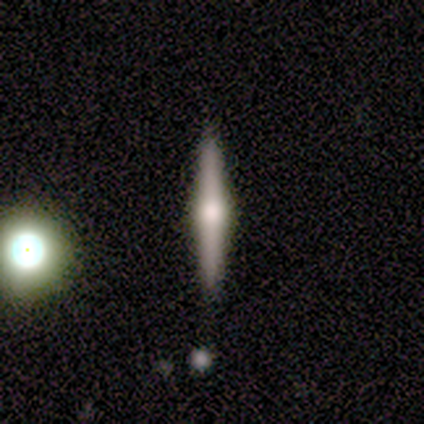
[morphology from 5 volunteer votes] A featured or disk galaxy (100%) viewed edge-on (100%) with a rounded central bulge (100%).

Vote fractions:
- Smooth or featured? featured or disk: 100% / smooth: 0% / star or artifact: 0%
- Edge-on disk? yes: 100% / no: 0%
- Edge-on bulge? rounded: 100% / boxy: 0% / none: 0%
- Merging? none: 100% / minor disturbance: 0% / major disturbance: 0% / merger: 0%